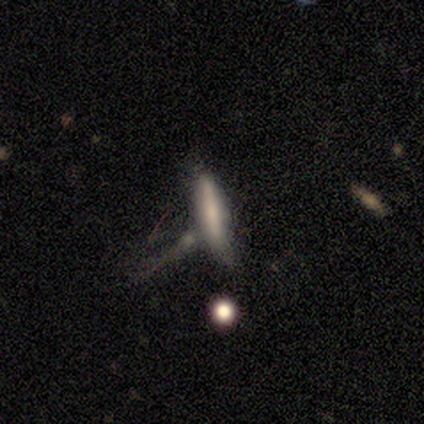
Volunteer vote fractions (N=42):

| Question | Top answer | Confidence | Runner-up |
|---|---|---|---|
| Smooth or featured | smooth | 52% | featured or disk (36%) |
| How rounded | cigar-shaped | 91% | in between (9%) |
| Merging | none | 38% | merger (30%) |